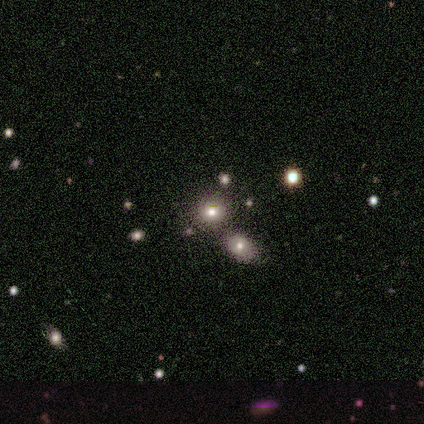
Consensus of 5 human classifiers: smooth-or-featured: smooth: 60% | star or artifact: 40% | featured or disk: 0%
  how-rounded: round: 67% | in between: 33% | cigar-shaped: 0%
  merging: none: 100% | minor disturbance: 0% | major disturbance: 0% | merger: 0%